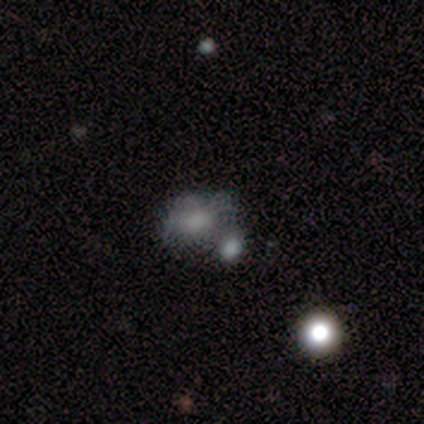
Smooth or featured? 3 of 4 (75%) said featured or disk. Edge-on disk? 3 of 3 (100%) said no. Bar? 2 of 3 (67%) said weak. Spiral arms? 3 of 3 (100%) said no. Bulge size? 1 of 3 (33%, tied with moderate and none) said large. Merging? 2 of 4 (50%) said minor disturbance.